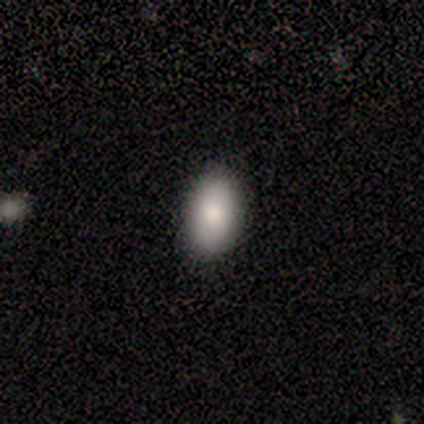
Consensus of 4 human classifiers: Smooth or featured: smooth — 100%
How rounded: in between — 75% (round — 25%)
Merging: none — 100%